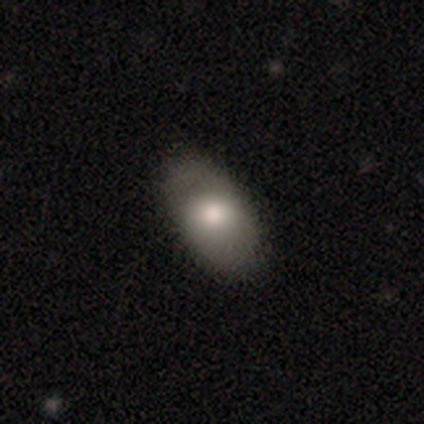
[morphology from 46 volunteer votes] type=smooth (70%); roundness=in between (88%); merging=none (83%).